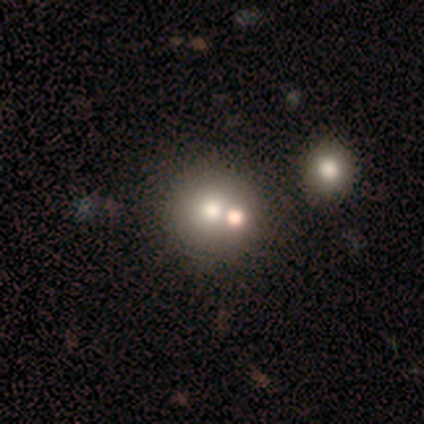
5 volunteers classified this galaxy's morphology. smooth-or-featured: smooth: 80% | featured or disk: 20% | star or artifact: 0%
  how-rounded: round: 75% | in between: 25% | cigar-shaped: 0%
  merging: none: 40% (tied) | merger: 40% (tied) | major disturbance: 20% | minor disturbance: 0%